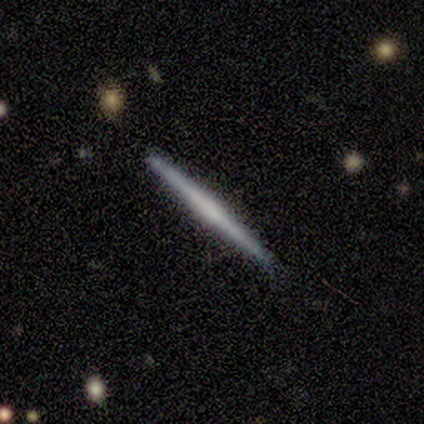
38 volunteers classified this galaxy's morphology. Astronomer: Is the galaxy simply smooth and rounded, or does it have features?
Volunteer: featured or disk — 55% (runner-up: smooth, 42%).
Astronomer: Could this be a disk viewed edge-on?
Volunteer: yes — 100%.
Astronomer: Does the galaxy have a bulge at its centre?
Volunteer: none — 62%.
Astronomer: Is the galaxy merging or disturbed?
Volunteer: none — 89%.